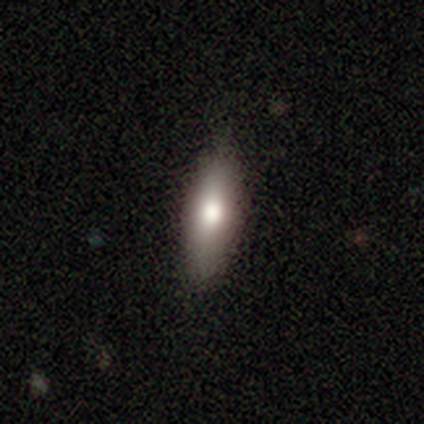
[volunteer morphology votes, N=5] This appears to be a smooth galaxy with no disk features (60%) that is cigar-shaped (67%). Merging: none (75%).